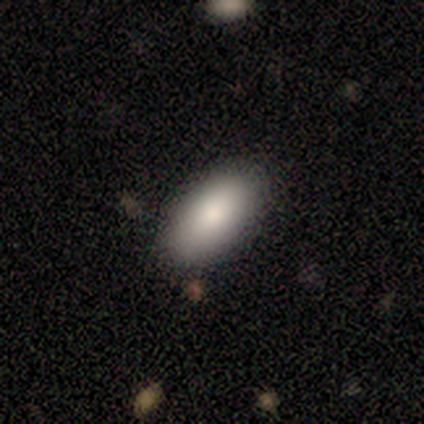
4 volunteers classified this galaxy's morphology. smooth_or_featured: smooth (p=0.75) [alt: featured or disk p=0.25]
how_rounded: in between (p=1.00)
merging: none (p=0.75) [alt: minor disturbance p=0.25]